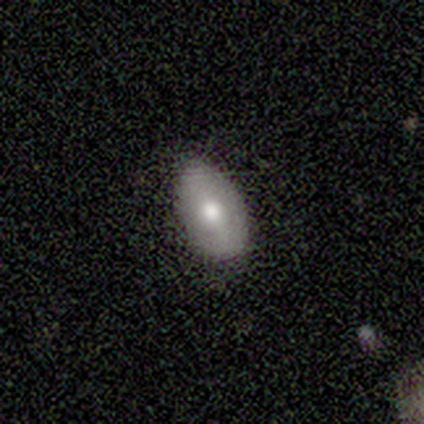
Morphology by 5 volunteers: smooth-or-featured: smooth: 60% | featured or disk: 40% | star or artifact: 0%
  how-rounded: in between: 100% | round: 0% | cigar-shaped: 0%
  merging: none: 100% | minor disturbance: 0% | major disturbance: 0% | merger: 0%